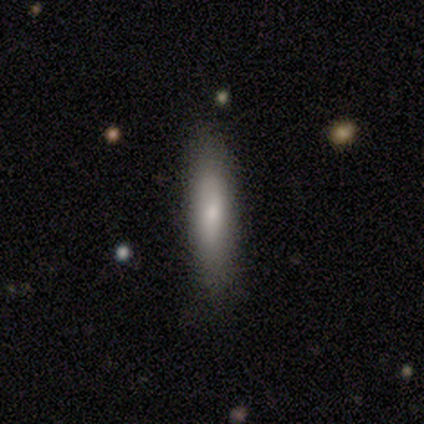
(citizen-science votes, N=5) Morphology: type=smooth (80%); roundness=cigar-shaped (75%); merging=none (100%).